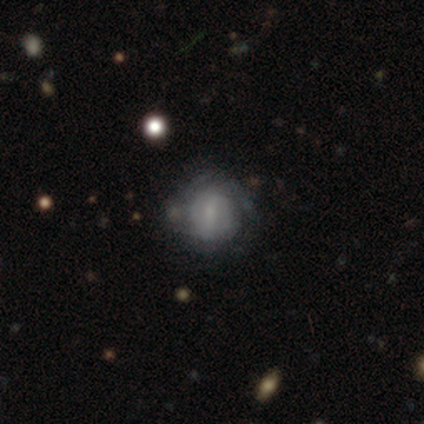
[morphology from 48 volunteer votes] A featured or disk galaxy (56%) with a weak bar (58%), tight (65%) spiral arms (65%) and a small central bulge (38%). Merging: none (62%).